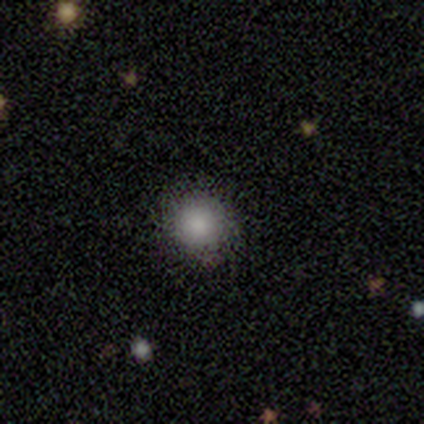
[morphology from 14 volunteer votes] smooth-or-featured: smooth: 64% | star or artifact: 29% | featured or disk: 7%
  how-rounded: round: 100% | in between: 0% | cigar-shaped: 0%
  merging: none: 80% | minor disturbance: 20% | major disturbance: 0% | merger: 0%